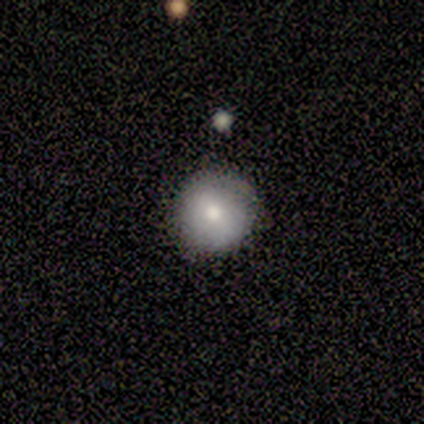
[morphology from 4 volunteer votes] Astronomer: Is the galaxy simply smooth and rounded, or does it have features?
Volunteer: featured or disk — 50%.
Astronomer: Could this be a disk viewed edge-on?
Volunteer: no — 100%.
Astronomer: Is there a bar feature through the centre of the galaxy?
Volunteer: weak — 50%, tied with no at 50%.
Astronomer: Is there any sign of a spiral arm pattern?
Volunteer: yes — 50%, tied with no at 50%.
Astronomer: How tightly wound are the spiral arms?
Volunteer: loose — 100%.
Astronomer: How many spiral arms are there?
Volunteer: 2 — 100%.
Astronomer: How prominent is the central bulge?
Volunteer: large — 50%, tied with small at 50%.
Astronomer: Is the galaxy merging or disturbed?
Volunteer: none — 67%.